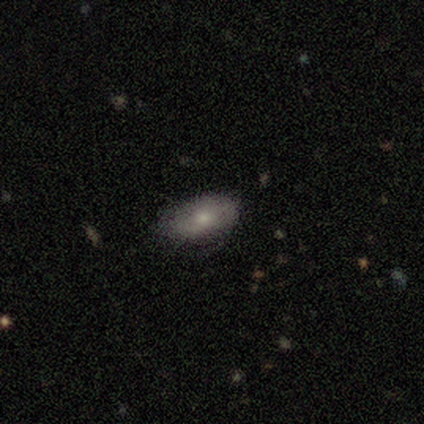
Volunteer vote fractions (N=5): smooth_or_featured: smooth (p=0.80) [alt: featured or disk p=0.20]
how_rounded: in between (p=1.00)
merging: none (p=1.00)